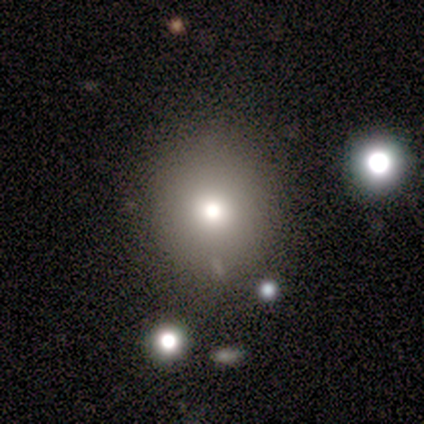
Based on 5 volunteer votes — This is clearly a smooth galaxy (80%). How rounded: likely round (75%). Merging: clearly none (100%).